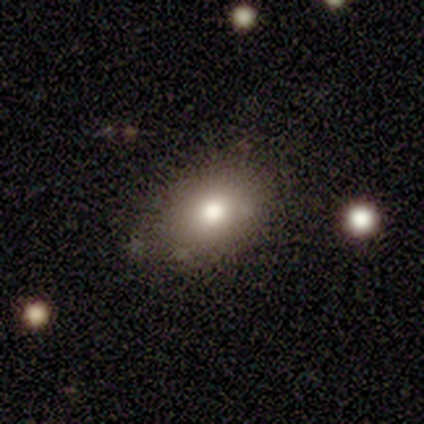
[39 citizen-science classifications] Smooth or featured? 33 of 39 (85%) said smooth. How rounded? 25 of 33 (76%) said in between. Merging? 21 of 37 (57%) said none.